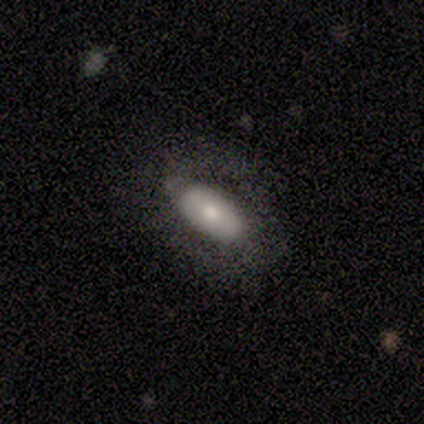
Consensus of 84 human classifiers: Smooth or featured? smooth (70%)
How rounded? in between (97%)
Merging? none (70%)